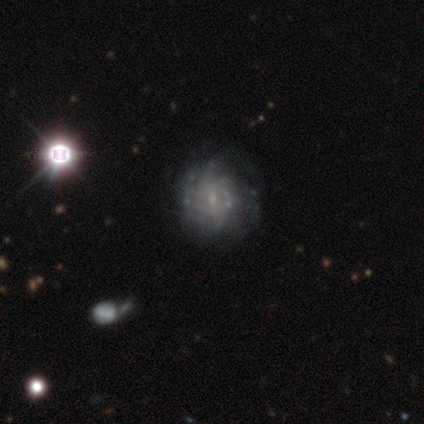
Smooth or featured: featured or disk — 100%
Edge-on disk: no — 100%
Bar: no — 60% (weak — 40%)
Spiral arms: yes — 80% (no — 20%)
Spiral winding: tight — 50% (tied with medium — 50%)
Spiral arm count: can't tell — 100%
Bulge size: small — 80% (moderate — 20%)
Merging: none — 80% (major disturbance — 20%)